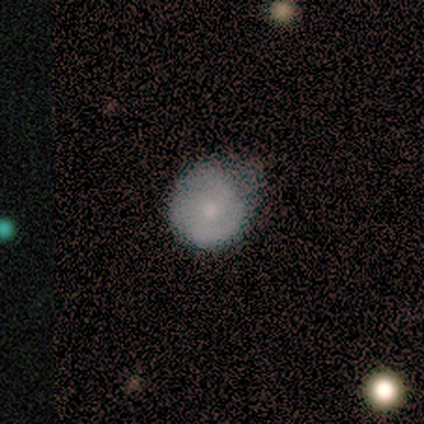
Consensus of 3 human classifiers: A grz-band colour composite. It shows a smooth galaxy with no disk features (100%) that is in between round and cigar-shaped (67%). Merging: minor disturbance (67%).